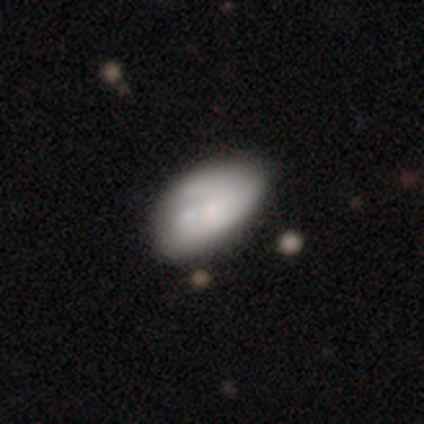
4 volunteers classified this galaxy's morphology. smooth 50% (tied), featured or disk 50% (tied), star or artifact 0%. Down the decision tree: how rounded — in between (100%); merging — none (50%).